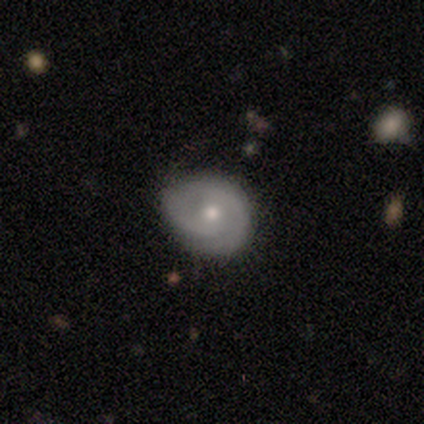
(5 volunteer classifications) Morphology: type=featured or disk (60%); edge-on=no (100%); bar=no (100%); spiral arms=yes (100%); winding=tight (67%); arm count=2 (100%); bulge=moderate (100%); merging=none (60%).